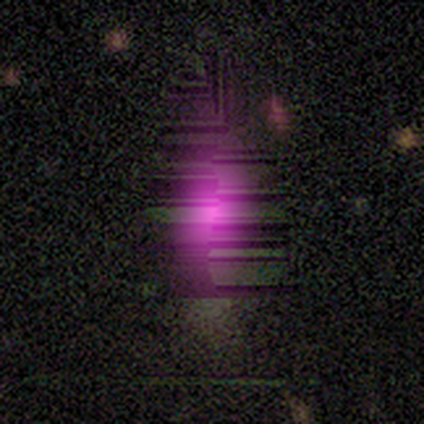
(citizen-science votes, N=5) A star or artifact, not a galaxy (60%).

Vote fractions:
- Smooth or featured? star or artifact: 60% / smooth: 40% / featured or disk: 0%